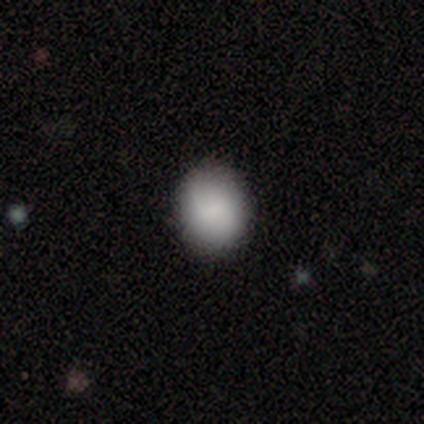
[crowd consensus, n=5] Q: Smooth or featured?
A: smooth (80%); runner-up: star or artifact (20%)
Q: How rounded?
A: round (75%); runner-up: in between (25%)
Q: Merging?
A: none (75%); runner-up: minor disturbance (25%)